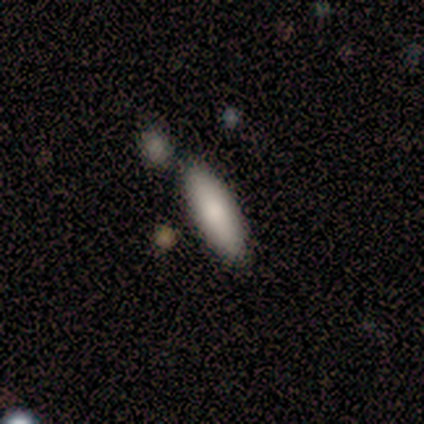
Smooth or featured? smooth (83%)
How rounded? in between (60%)
Merging? none (80%)